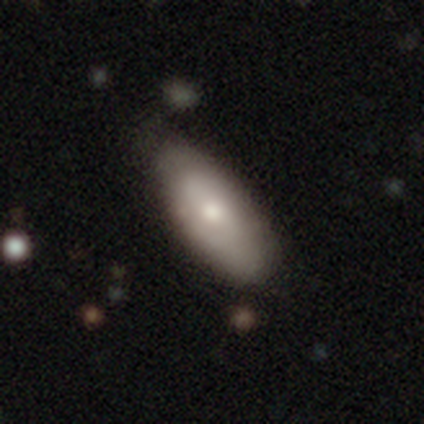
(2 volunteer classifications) Smooth or featured?
  - smooth: 100% *
  - featured or disk: 0%
  - star or artifact: 0%
How rounded?
  - in between: 100% *
  - round: 0%
  - cigar-shaped: 0%
Merging?
  - none: 100% *
  - minor disturbance: 0%
  - major disturbance: 0%
  - merger: 0%